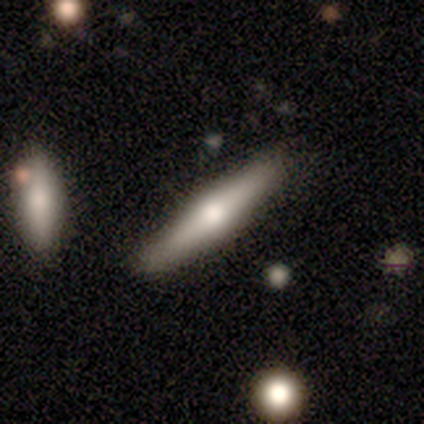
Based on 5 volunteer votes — Q: Smooth or featured?
A: smooth (80%); runner-up: featured or disk (20%)
Q: How rounded?
A: cigar-shaped (100%)
Q: Merging?
A: none (60%); runner-up: minor disturbance (40%)